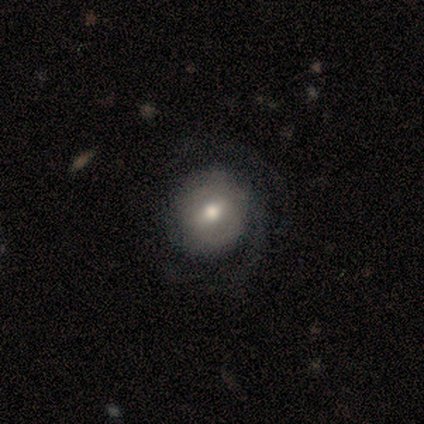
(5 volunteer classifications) Q: Smooth or featured?
A: smooth (80%); runner-up: featured or disk (20%)
Q: How rounded?
A: round (100%)
Q: Merging?
A: none (80%); runner-up: major disturbance (20%)